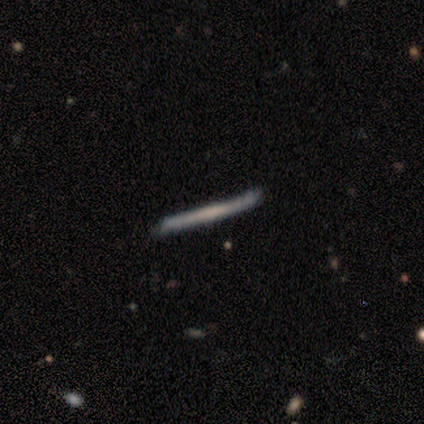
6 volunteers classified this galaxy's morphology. Overall: featured or disk (83%). Edge-on disk: yes (100%). Edge-on bulge: none (60%; boxy 40%). Merging: none (100%).